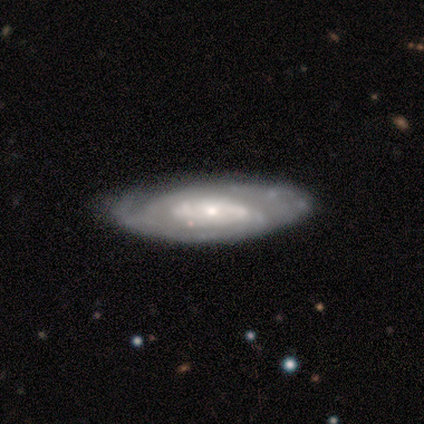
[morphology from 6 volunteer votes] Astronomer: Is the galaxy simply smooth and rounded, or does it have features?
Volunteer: featured or disk — 67%.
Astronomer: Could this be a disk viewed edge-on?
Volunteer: no — 100%.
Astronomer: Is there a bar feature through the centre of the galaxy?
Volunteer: no — 75%.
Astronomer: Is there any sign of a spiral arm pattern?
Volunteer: yes — 75%.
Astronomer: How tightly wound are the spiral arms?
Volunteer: tight — 67%.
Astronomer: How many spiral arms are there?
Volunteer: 2 — 67%.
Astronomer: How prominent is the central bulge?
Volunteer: moderate — 50%, tied with small at 50%.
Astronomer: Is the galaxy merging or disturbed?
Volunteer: minor disturbance — 60% (runner-up: none, 40%).